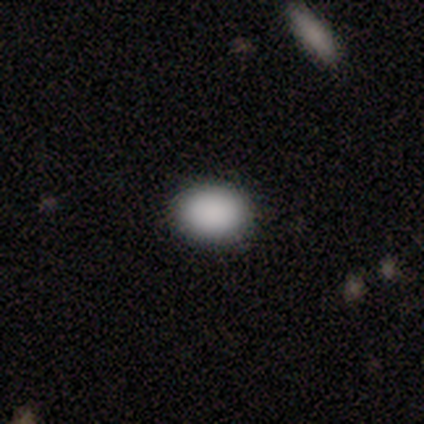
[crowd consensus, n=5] Volunteers were most divided on "smooth or featured": smooth: 60%, star or artifact: 40%, featured or disk: 0%. More confident: merging — none (100%); how rounded — round (67%).